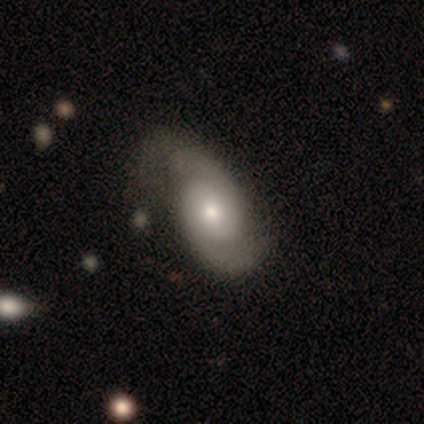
Smooth or featured? 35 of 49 (71%) said featured or disk. Edge-on disk? 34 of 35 (97%) said no. Bar? 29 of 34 (85%) said no. Spiral arms? 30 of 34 (88%) said yes. Spiral winding? 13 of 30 (43%) said medium. Spiral arm count? 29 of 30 (97%) said 2. Bulge size? 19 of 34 (56%) said moderate. Merging? 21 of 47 (45%) said none.